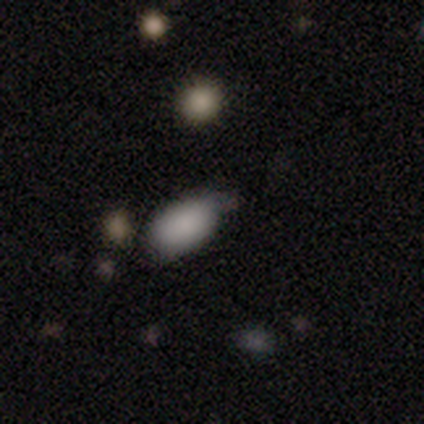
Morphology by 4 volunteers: type=smooth (75%); roundness=in between (100%); merging=none (100%).